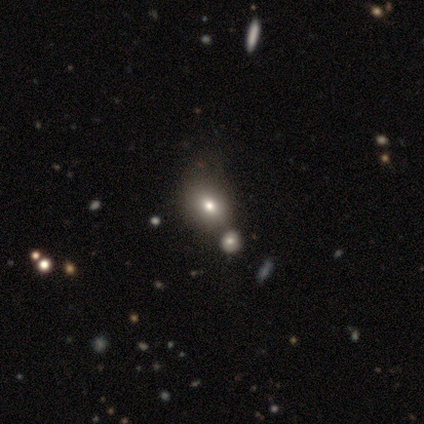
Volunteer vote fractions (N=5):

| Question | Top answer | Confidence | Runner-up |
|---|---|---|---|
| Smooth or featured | smooth | 40% | tied: star or artifact (40%) |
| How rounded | round | 100% | — |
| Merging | merger | 67% | none (33%) |